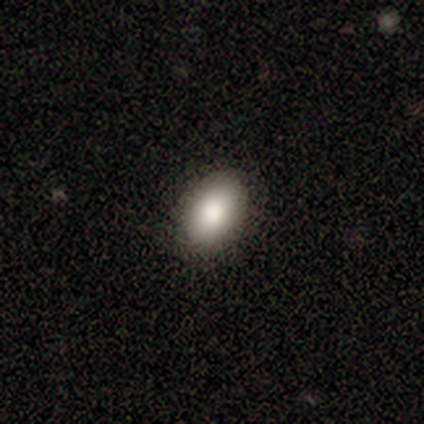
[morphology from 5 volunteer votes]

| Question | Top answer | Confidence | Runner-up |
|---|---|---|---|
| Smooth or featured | smooth | 100% | — |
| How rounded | in between | 100% | — |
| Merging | none | 80% | minor disturbance (20%) |